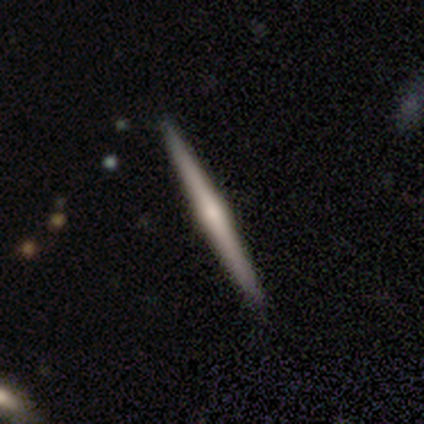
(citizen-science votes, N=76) A featured or disk galaxy (66%) viewed edge-on (98%) with a rounded central bulge (82%). Merging: none (56%).